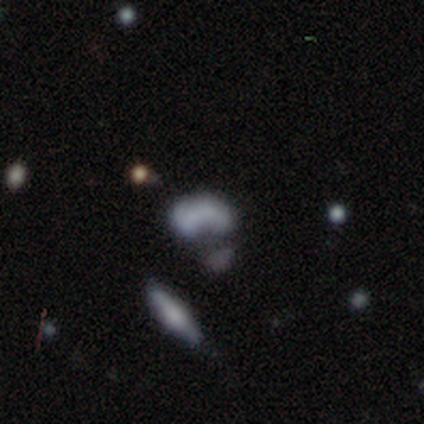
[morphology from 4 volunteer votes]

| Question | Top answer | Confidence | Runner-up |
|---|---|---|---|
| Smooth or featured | featured or disk | 50% | tied: star or artifact (50%) |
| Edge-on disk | no | 100% | — |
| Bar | strong | 50% | tied: no (50%) |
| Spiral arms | no | 100% | — |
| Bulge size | moderate | 50% | tied: none (50%) |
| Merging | major disturbance | 50% | tied: merger (50%) |